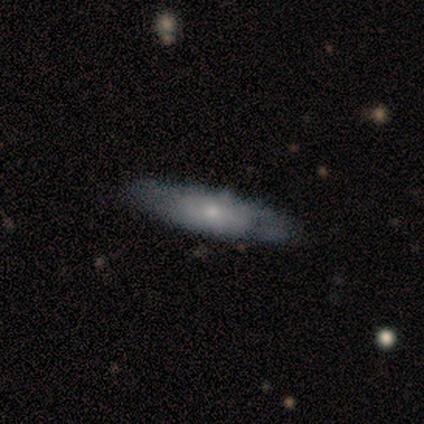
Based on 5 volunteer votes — featured or disk 60%, smooth 40%, star or artifact 0%. Down the decision tree: edge-on disk — yes (67%); edge-on bulge — rounded (100%); merging — none (80%).